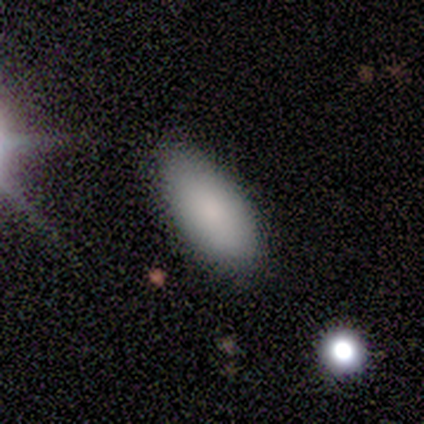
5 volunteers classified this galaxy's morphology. This is clearly a smooth galaxy (100%). How rounded: clearly in between (100%). Merging: clearly none (100%).